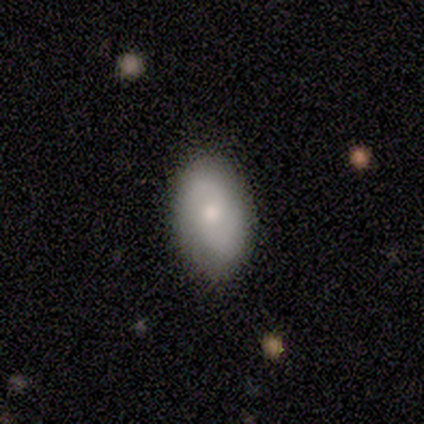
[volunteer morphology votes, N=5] Smooth or featured: smooth — 60% (featured or disk — 40%)
How rounded: in between — 67% (round — 33%)
Merging: none — 100%